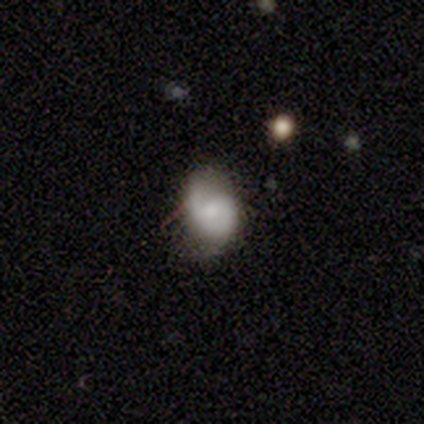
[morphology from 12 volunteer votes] featured or disk 58%, smooth 42%, star or artifact 0%. Down the decision tree: edge-on disk — no (86%); bar — no (50%); spiral arms — yes (100%); spiral arm count — 2 (83%); spiral winding — medium (83%); bulge size — moderate (50%); merging — minor disturbance (42%).